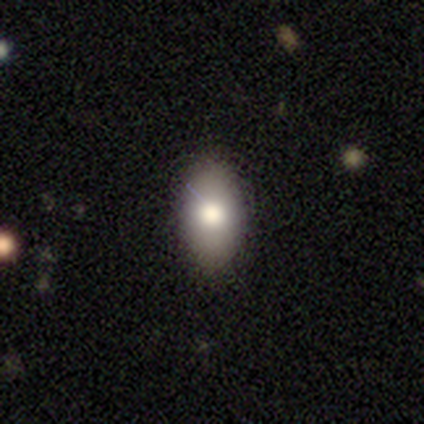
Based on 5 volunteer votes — Morphology: type=smooth (40%, tied with featured or disk); roundness=in between (100%); merging=none (100%).